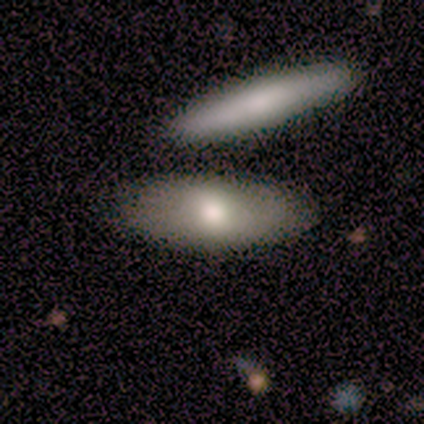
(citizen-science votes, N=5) Smooth or featured: smooth — 40% (tied with featured or disk — 40%)
How rounded: in between — 100%
Merging: none — 75% (merger — 25%)